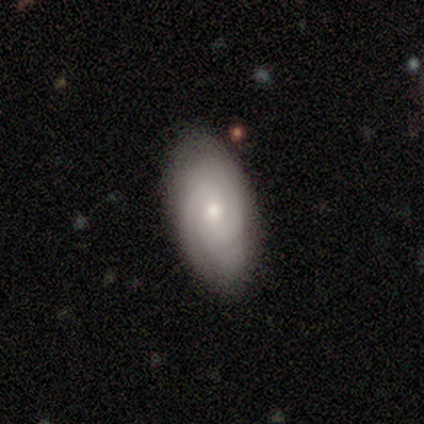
Morphology: type=smooth (46%, tied with featured or disk); roundness=in between (100%); merging=none (75%).